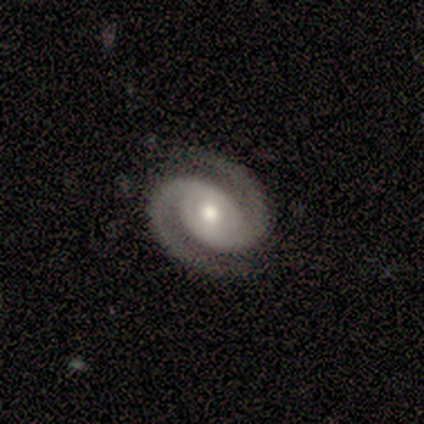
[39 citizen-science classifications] A featured or disk galaxy (95%) with no bar (49%), 2 (100%) tight (56%) spiral arms (97%) and a moderate central bulge (68%). Merging: none (87%).